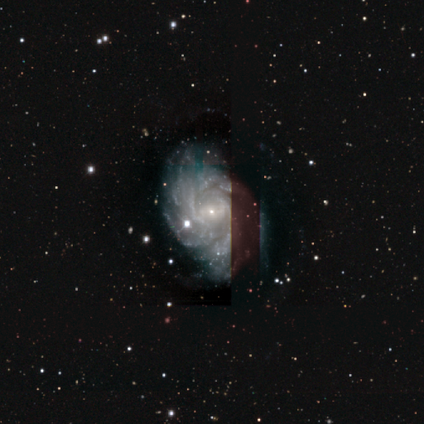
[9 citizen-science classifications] Morphology: type=featured or disk (100%); edge-on=no (100%); bar=weak (78%); spiral arms=yes (100%); winding=tight (56%); arm count=more than 4 (67%); bulge=small (89%); merging=none (100%).